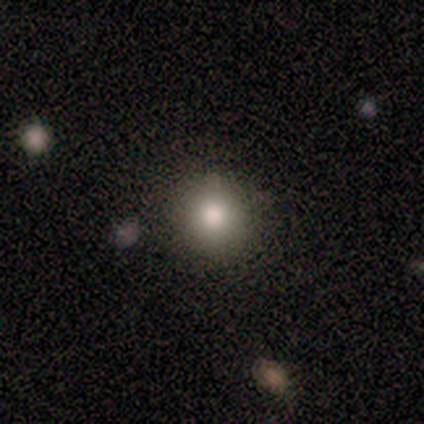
Smooth or featured? smooth (100%)
How rounded? round (80%)
Merging? none (100%)